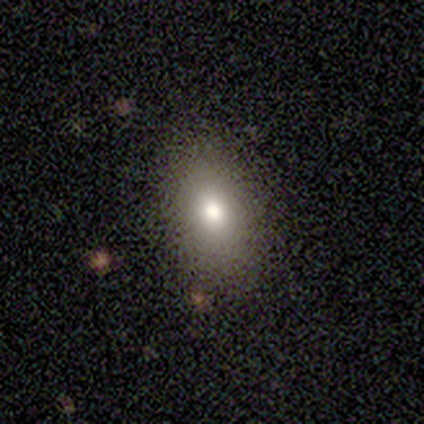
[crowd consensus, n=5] Smooth or featured? 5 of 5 (100%) said smooth. How rounded? 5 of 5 (100%) said in between. Merging? 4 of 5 (80%) said none.